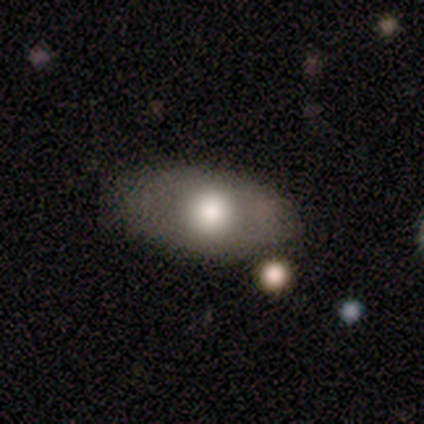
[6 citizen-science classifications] smooth_or_featured: smooth (p=0.67) [alt: featured or disk p=0.17]
how_rounded: in between (p=0.75) [alt: cigar-shaped p=0.25]
merging: minor disturbance (p=0.60) [alt: none p=0.40]